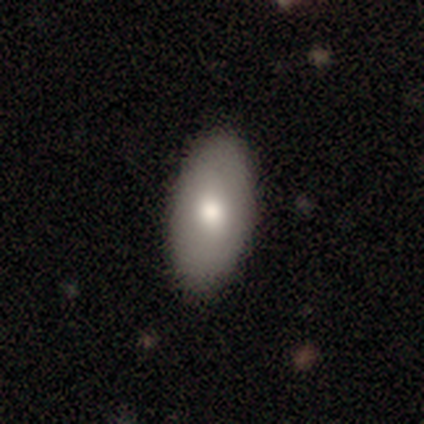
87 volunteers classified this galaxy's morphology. smooth 74%, featured or disk 21%, star or artifact 6%. Down the decision tree: how rounded — in between (91%); merging — none (94%).